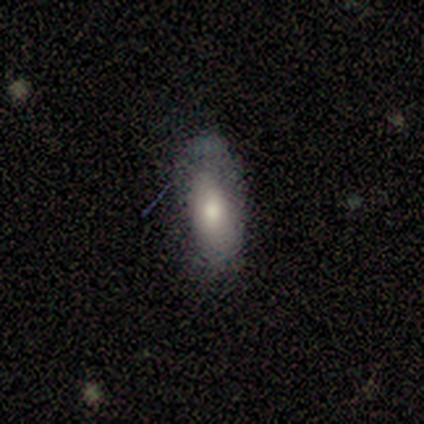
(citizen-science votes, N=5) Smooth or featured: smooth — 60% (featured or disk — 40%)
How rounded: in between — 100%
Merging: none — 60% (minor disturbance — 40%)